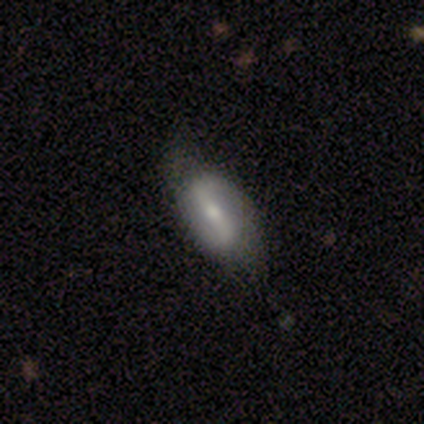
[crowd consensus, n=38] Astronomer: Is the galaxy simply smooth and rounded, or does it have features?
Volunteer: featured or disk — 58% (runner-up: smooth, 37%).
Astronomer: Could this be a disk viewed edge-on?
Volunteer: no — 91%.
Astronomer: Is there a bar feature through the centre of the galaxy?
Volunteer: strong — 85%.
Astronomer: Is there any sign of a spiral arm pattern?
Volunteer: yes — 80%.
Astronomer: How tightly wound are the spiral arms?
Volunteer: loose — 62%.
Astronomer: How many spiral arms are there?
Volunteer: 2 — 100%.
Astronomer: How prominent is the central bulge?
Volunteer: moderate — 50% (runner-up: small, 45%).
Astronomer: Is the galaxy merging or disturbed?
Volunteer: none — 72%.